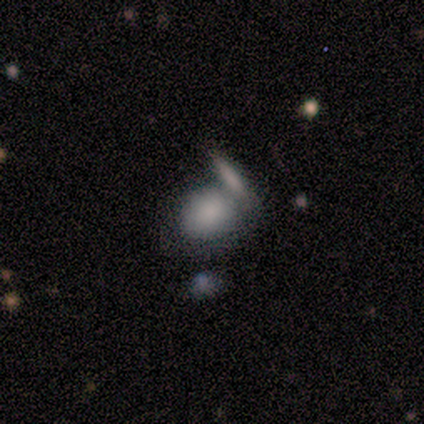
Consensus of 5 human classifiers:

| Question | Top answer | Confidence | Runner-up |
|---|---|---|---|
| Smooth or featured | smooth | 60% | featured or disk (20%) |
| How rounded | in between | 67% | round (33%) |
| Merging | none | 25% | tied: minor disturbance (25%), major disturbance (25%), merger (25%) |